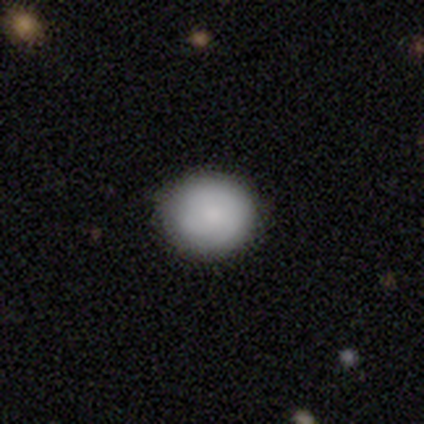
smooth 60%, featured or disk 40%, star or artifact 0%. Down the decision tree: how rounded — round (100%); merging — none (100%).